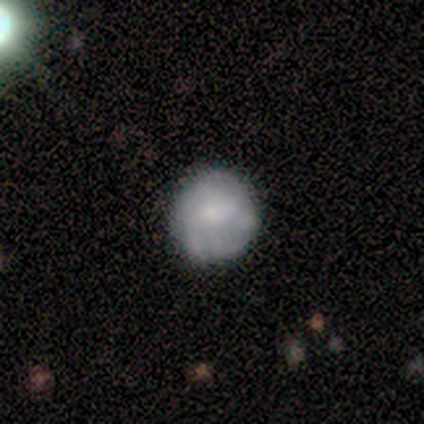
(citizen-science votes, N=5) A smooth galaxy with no disk features (60%) that is round (100%). Merging: none (100%).